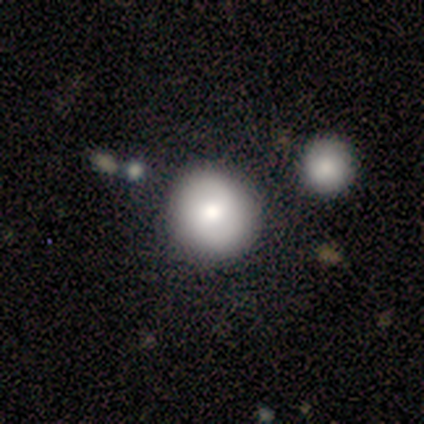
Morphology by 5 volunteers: Smooth or featured: smooth — 80% (featured or disk — 20%)
How rounded: round — 100%
Merging: none — 100%